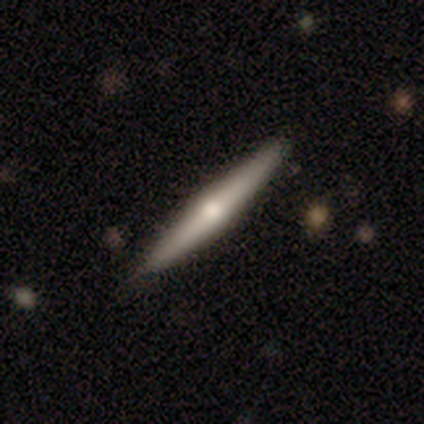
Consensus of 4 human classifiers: Q: Smooth or featured?
A: smooth (50%); runner-up: featured or disk (25%)
Q: How rounded?
A: cigar-shaped (100%)
Q: Merging?
A: none (100%)